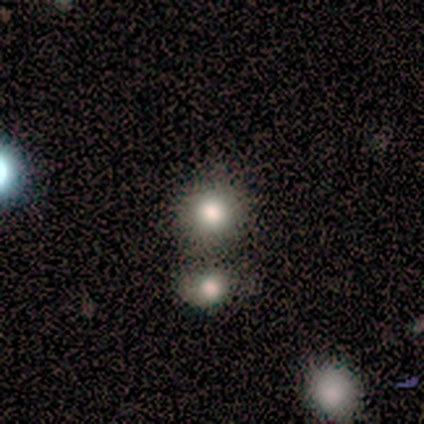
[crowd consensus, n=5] Smooth or featured: smooth — 80% (star or artifact — 20%)
How rounded: round — 100%
Merging: none — 75% (merger — 25%)